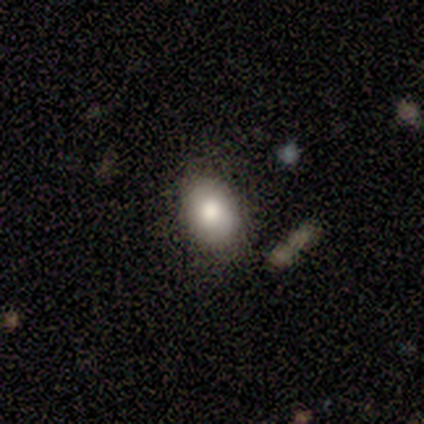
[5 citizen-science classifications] Overall: smooth (60%; featured or disk 40%). How rounded: in between (67%; round 33%). Merging: none (40%, tied with minor disturbance).